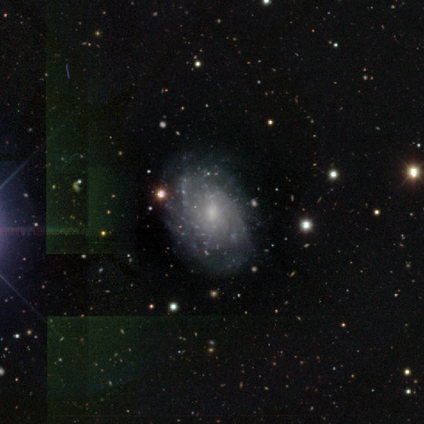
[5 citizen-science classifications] featured or disk 100%, smooth 0%, star or artifact 0%. Down the decision tree: edge-on disk — no (100%); bar — no (80%); spiral arms — yes (100%); spiral arm count — can't tell (60%); spiral winding — tight (80%); bulge size — small (60%); merging — none (100%).